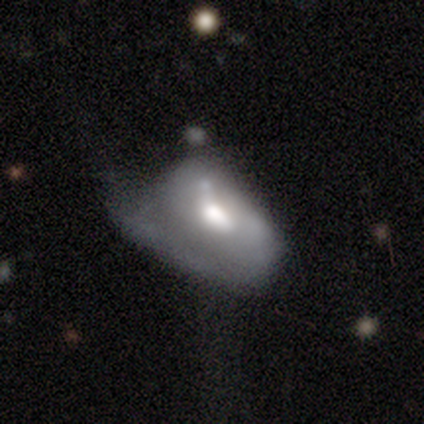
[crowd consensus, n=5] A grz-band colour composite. It shows a featured or disk galaxy (60%) with no bar (67%), 1 (100%) tight (50%, tied with medium) spiral arms (67%) and a moderate central bulge (100%). Merging: minor disturbance (40%, tied with major disturbance).